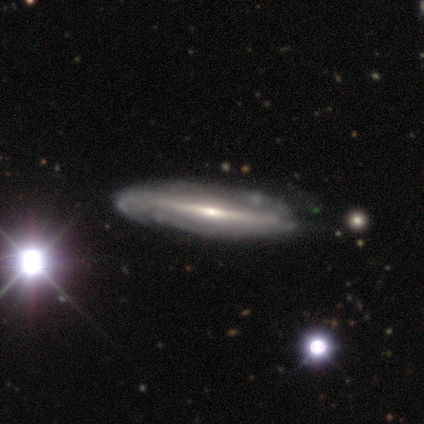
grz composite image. It shows a featured or disk galaxy (100%) with a strong bar (75%), 2 (67%) medium (67%) spiral arms (75%) and a small central bulge (75%). Merging: none (40%, tied with minor disturbance).